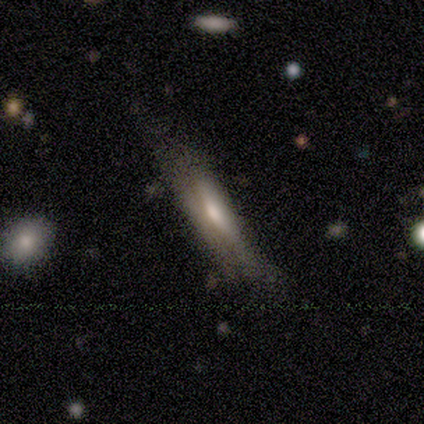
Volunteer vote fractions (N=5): This appears to be a featured or disk galaxy (80%) viewed edge-on (100%) with a rounded central bulge (50%). Merging: minor disturbance (60%).